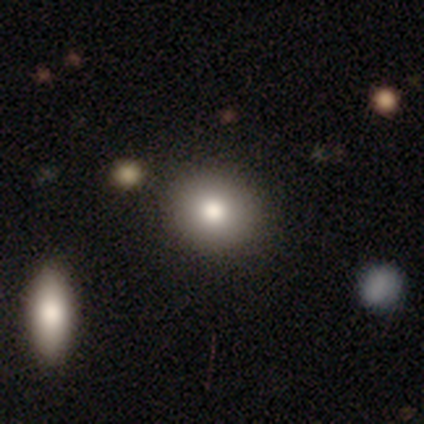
Overall: smooth (80%). How rounded: round (81%). Merging: none (83%).